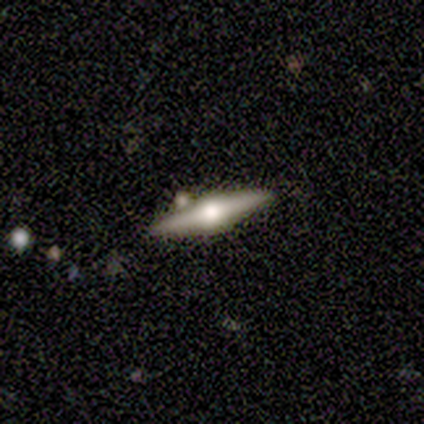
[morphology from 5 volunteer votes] smooth_or_featured: featured or disk (p=0.60) [alt: smooth p=0.40]
disk_edge_on: yes (p=1.00)
edge_on_bulge: rounded (p=1.00)
merging: minor disturbance (p=0.60) [alt: none p=0.40]